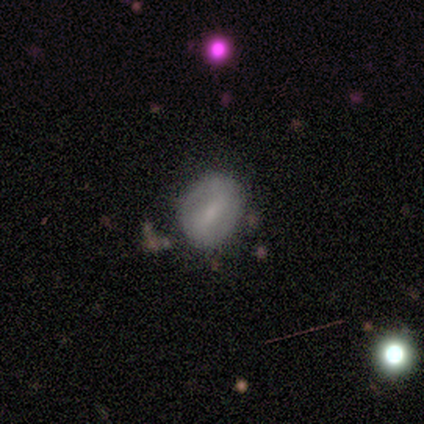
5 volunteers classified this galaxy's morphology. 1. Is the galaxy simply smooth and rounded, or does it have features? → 80% smooth, 20% star or artifact, 0% featured or disk.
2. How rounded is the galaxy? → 75% in between, 25% round, 0% cigar-shaped.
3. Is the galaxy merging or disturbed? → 75% none, 25% major disturbance, 0% minor disturbance, 0% merger.